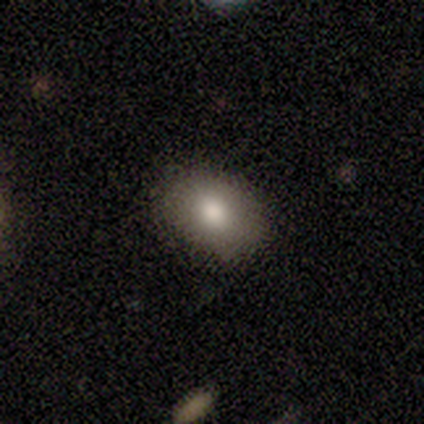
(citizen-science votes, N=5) Q: Smooth or featured?
A: smooth (80%); runner-up: star or artifact (20%)
Q: How rounded?
A: in between (100%)
Q: Merging?
A: none (100%)